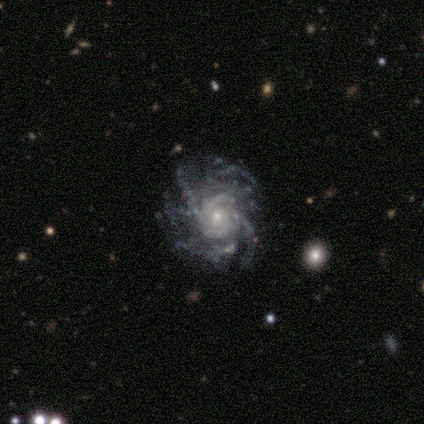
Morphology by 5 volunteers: This is clearly a featured or disk galaxy (80%). It is clearly not viewed edge-on (100%). Bar: possibly no (50%). Spiral arm pattern: clearly yes (100%). Spiral arm count: marginally 2 (25%, tied with 3, more than 4 and can't tell). Spiral winding: clearly tight (100%). Central bulge: possibly moderate (50%, tied with small). Merging: likely minor disturbance (60%).